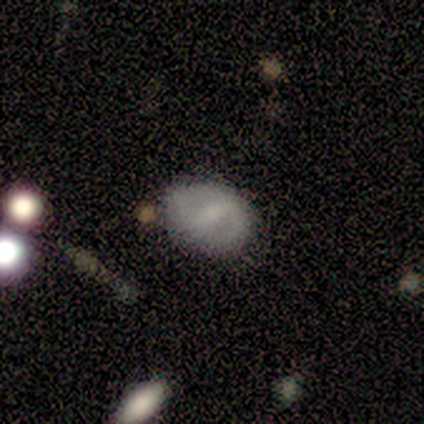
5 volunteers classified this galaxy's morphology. A smooth galaxy with no disk features (60%) that is in between round and cigar-shaped (67%). Merging: none (60%).